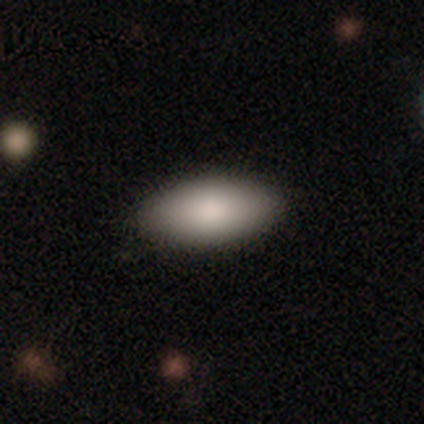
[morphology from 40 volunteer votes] Smooth or featured? 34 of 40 (85%) said smooth. How rounded? 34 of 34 (100%) said in between. Merging? 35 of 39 (90%) said none.